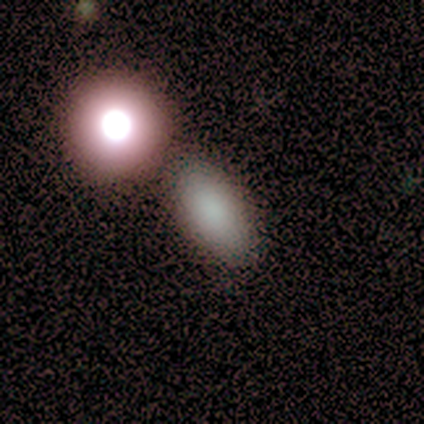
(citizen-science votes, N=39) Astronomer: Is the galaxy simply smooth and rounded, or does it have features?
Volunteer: smooth — 87%.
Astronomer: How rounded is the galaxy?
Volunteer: in between — 76%.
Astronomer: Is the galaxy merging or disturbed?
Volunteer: none — 66%.